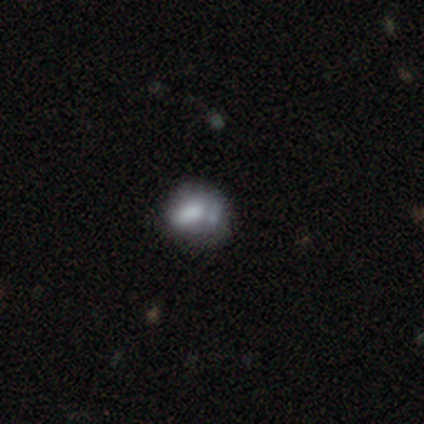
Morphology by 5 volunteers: Smooth or featured? 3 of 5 (60%) said smooth. How rounded? 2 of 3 (67%) said round. Merging? 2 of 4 (50%) said none.